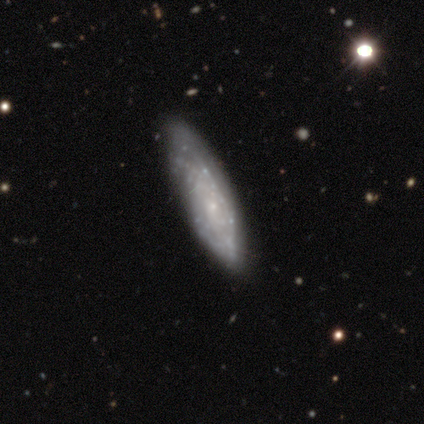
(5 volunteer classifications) A featured or disk galaxy (100%) with no bar (100%), tight (67%) spiral arms (60%) and a small central bulge (80%). Merging: none (60%).